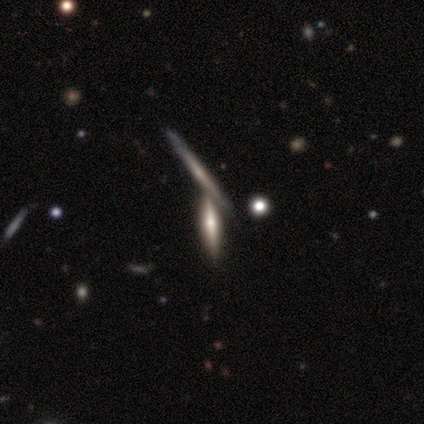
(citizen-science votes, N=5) featured or disk 60%, smooth 40%, star or artifact 0%. Down the decision tree: edge-on disk — yes (100%); edge-on bulge — none (67%); merging — none (40%, tied with merger).